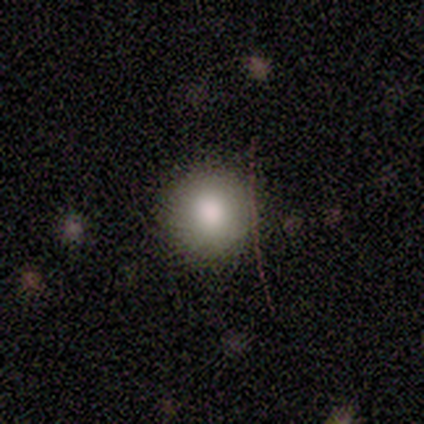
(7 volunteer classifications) Smooth or featured?
  - smooth: 86% *
  - star or artifact: 14%
  - featured or disk: 0%
How rounded?
  - round: 83% *
  - in between: 17%
  - cigar-shaped: 0%
Merging?
  - none: 83% *
  - minor disturbance: 17%
  - major disturbance: 0%
  - merger: 0%